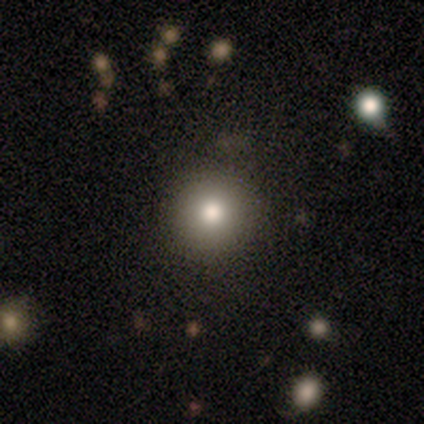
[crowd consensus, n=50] Smooth or featured?
  - smooth: 86% *
  - star or artifact: 8%
  - featured or disk: 6%
How rounded?
  - round: 95% *
  - in between: 5%
  - cigar-shaped: 0%
Merging?
  - none: 89% *
  - minor disturbance: 7%
  - major disturbance: 2%
  - merger: 2%